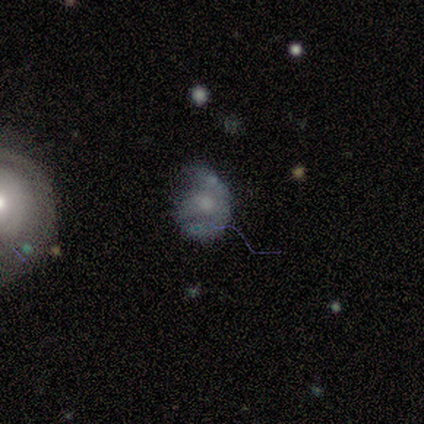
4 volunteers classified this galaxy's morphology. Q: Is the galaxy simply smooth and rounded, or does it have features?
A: smooth — 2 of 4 (50%, tied with featured or disk).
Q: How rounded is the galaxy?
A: round — 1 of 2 (50%, tied with in between).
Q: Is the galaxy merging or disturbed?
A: major disturbance — 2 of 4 (50%).